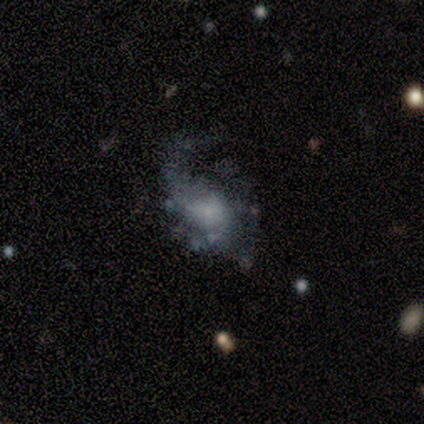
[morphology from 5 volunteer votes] Smooth or featured: featured or disk — 60% (smooth — 20%)
Edge-on disk: no — 100%
Bar: weak — 67% (no — 33%)
Spiral arms: yes — 100%
Spiral winding: tight — 33% (tied with medium — 33%; loose — 33%)
Spiral arm count: 1 — 33% (tied with 2 — 33%; can't tell — 33%)
Bulge size: large — 33% (tied with moderate — 33%; small — 33%)
Merging: none — 25% (tied with minor disturbance — 25%; major disturbance — 25%; merger — 25%)